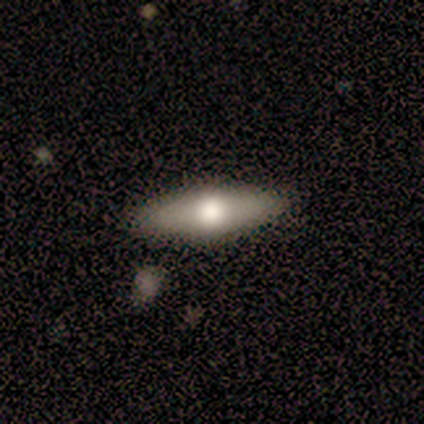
featured or disk 75%, smooth 25%, star or artifact 0%. Down the decision tree: edge-on disk — yes (100%); edge-on bulge — rounded (100%); merging — none (100%).